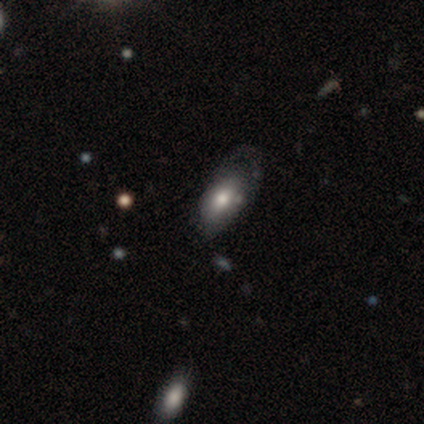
A smooth galaxy with no disk features (80%) that is in between round and cigar-shaped (100%). Merging: major disturbance (80%).